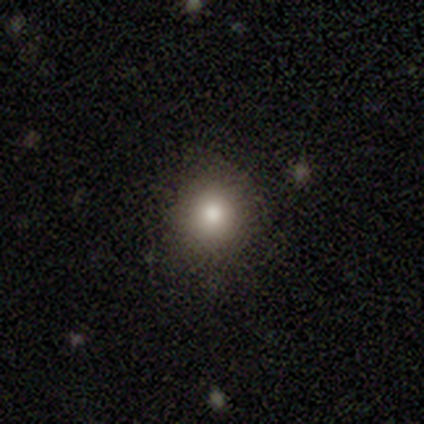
Q: Smooth or featured?
A: smooth (72%); runner-up: star or artifact (18%)
Q: How rounded?
A: round (82%); runner-up: in between (18%)
Q: Merging?
A: none (91%); runner-up: minor disturbance (6%)